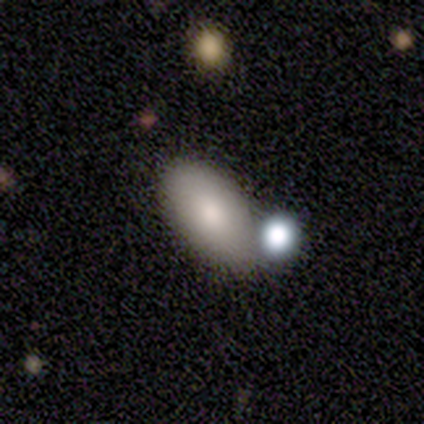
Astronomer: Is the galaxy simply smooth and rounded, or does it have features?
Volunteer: smooth — 40%, tied with featured or disk at 40%.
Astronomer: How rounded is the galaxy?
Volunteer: in between — 100%.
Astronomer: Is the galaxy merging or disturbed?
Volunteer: merger — 50%.